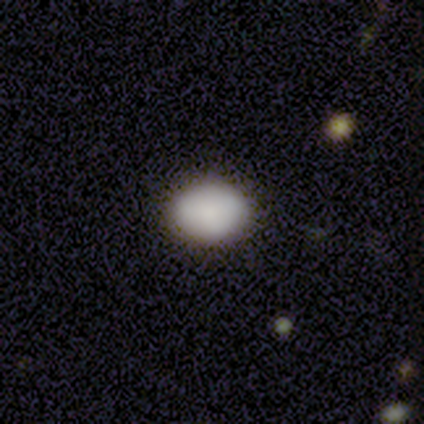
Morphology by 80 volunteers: This is clearly a smooth galaxy (91%). How rounded: possibly in between (56%). Merging: possibly none (49%).